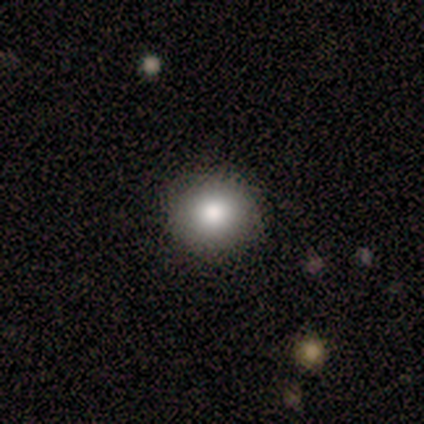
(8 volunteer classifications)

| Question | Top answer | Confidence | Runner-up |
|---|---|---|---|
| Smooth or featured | smooth | 88% | star or artifact (12%) |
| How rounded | round | 86% | in between (14%) |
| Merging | none | 86% | minor disturbance (14%) |